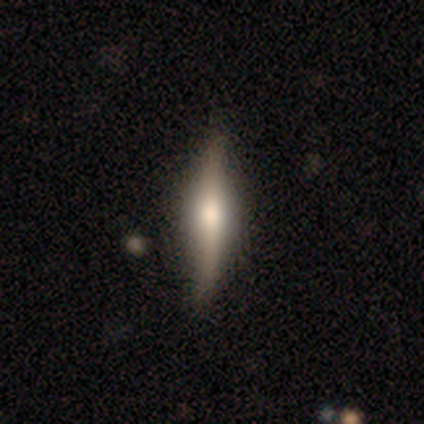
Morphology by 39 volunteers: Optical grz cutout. It shows a featured or disk galaxy (67%) viewed edge-on (85%) with a rounded central bulge (59%). Merging: none (92%).